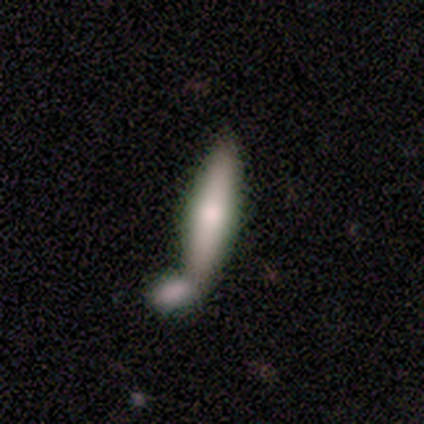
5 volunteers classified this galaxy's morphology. smooth_or_featured: smooth (p=0.80) [alt: featured or disk p=0.20]
how_rounded: cigar-shaped (p=0.75) [alt: in between p=0.25]
merging: merger (p=1.00)